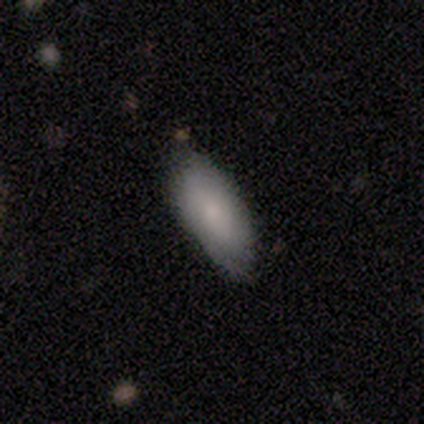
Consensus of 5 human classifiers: smooth_or_featured: smooth (p=0.40) [tied with: featured or disk p=0.40]
how_rounded: in between (p=0.50) [tied with: cigar-shaped p=0.50]
merging: none (p=0.50) [tied with: minor disturbance p=0.50]